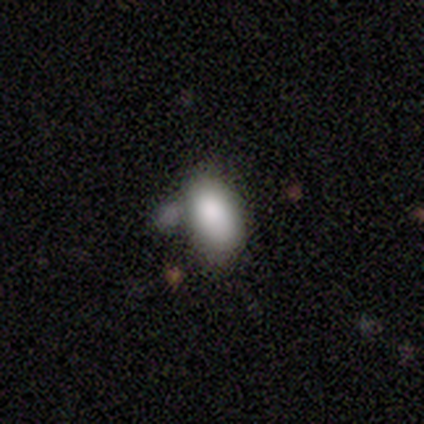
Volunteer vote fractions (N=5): This appears to be a smooth galaxy with no disk features (60%) that is in between round and cigar-shaped (100%). Merging: none (67%).